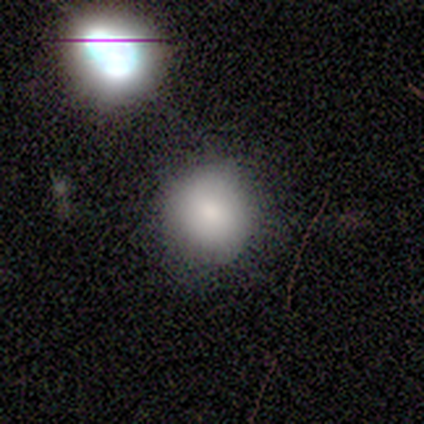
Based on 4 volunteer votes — Overall: smooth (100%). How rounded: round (100%). Merging: none (100%).